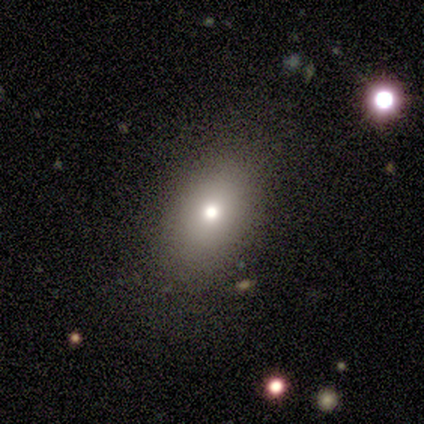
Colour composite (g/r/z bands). It shows a smooth galaxy with no disk features (50%) that is in between round and cigar-shaped (100%). Merging: none (100%).